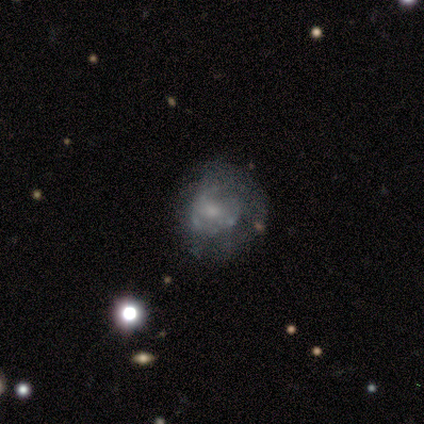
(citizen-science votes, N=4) smooth-or-featured: featured or disk: 75% | smooth: 25% | star or artifact: 0%
  disk-edge-on: no: 100% | yes: 0%
    bar: no: 100% | strong: 0% | weak: 0%
    has-spiral-arms: no: 100% | yes: 0%
    bulge-size: none: 67% | small: 33% | dominant: 0% | large: 0% | moderate: 0%
  merging: major disturbance: 50% | none: 25% | minor disturbance: 25% | merger: 0%